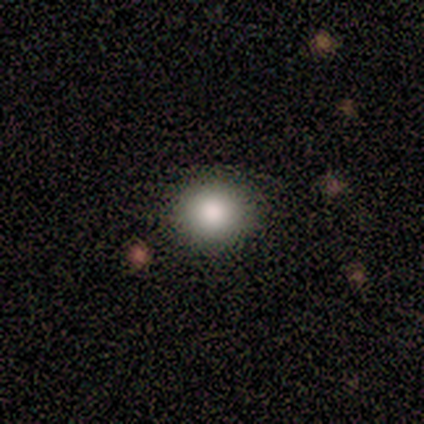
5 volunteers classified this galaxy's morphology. Smooth or featured: smooth — 100%
How rounded: round — 80% (in between — 20%)
Merging: none — 100%